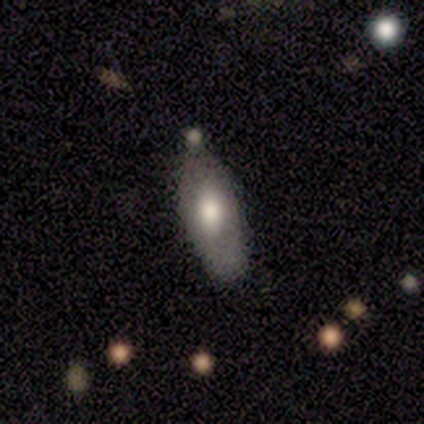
Smooth or featured?
  - smooth: 75% *
  - featured or disk: 14%
  - star or artifact: 11%
How rounded?
  - in between: 81% *
  - cigar-shaped: 11%
  - round: 7%
Merging?
  - none: 50% *
  - minor disturbance: 34%
  - major disturbance: 12%
  - merger: 3%